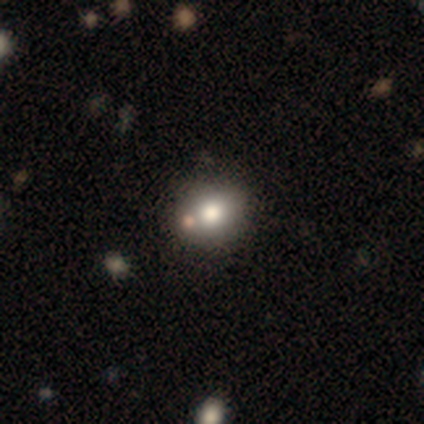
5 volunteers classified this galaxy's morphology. Overall: smooth (40%, tied with featured or disk). How rounded: round (100%). Merging: none (75%).